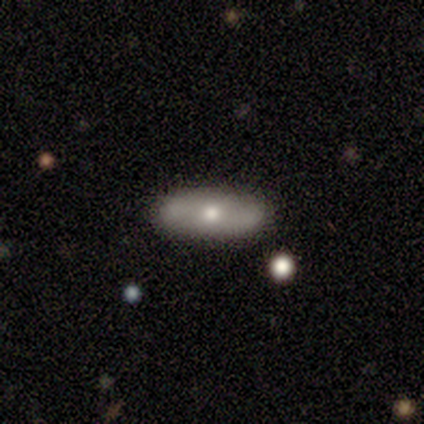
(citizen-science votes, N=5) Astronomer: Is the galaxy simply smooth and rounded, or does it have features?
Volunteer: featured or disk — 60% (runner-up: smooth, 40%).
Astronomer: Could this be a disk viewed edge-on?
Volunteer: no — 100%.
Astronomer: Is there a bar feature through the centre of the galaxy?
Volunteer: no — 67%.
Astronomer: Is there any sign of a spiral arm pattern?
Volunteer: yes — 100%.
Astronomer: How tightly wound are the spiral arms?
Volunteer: tight — 67%.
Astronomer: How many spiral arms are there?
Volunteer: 2 — 67%.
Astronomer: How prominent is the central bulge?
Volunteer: moderate — 67%.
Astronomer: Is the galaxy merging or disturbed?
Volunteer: none — 100%.